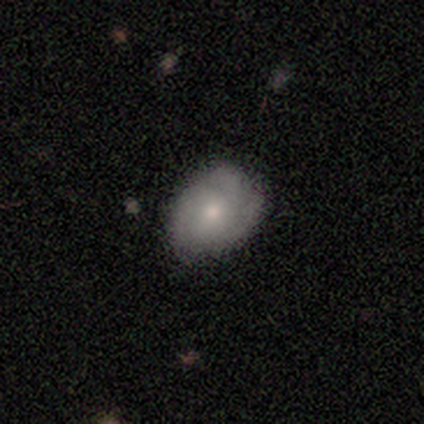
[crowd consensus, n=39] Morphology: type=smooth (59%); roundness=in between (74%); merging=none (66%).